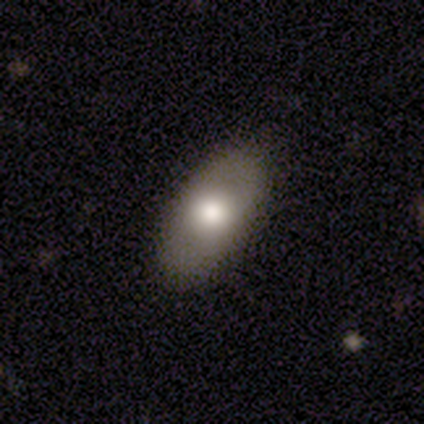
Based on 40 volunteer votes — Q: Smooth or featured?
A: smooth (65%); runner-up: featured or disk (32%)
Q: How rounded?
A: in between (96%); runner-up: cigar-shaped (4%)
Q: Merging?
A: none (82%); runner-up: minor disturbance (18%)